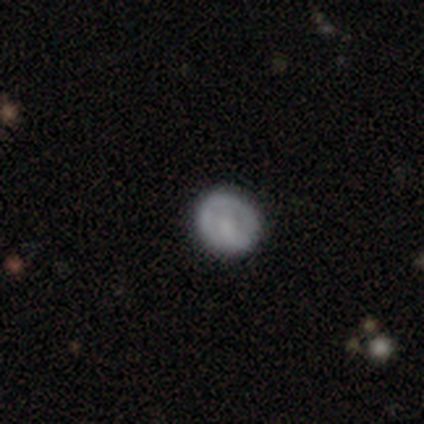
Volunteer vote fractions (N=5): Q: Smooth or featured?
A: featured or disk (40%); tied with: star or artifact (40%)
Q: Edge-on disk?
A: no (100%)
Q: Bar?
A: strong (50%); tied with: no (50%)
Q: Spiral arms?
A: no (100%)
Q: Bulge size?
A: moderate (50%); tied with: small (50%)
Q: Merging?
A: none (100%)